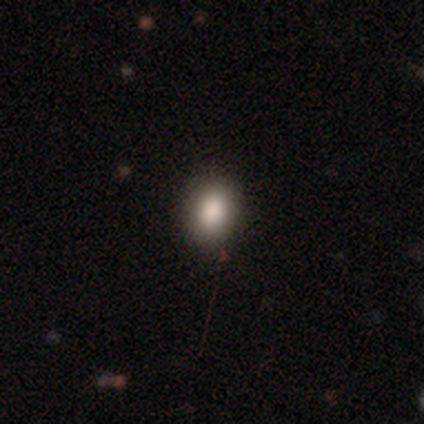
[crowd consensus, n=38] A smooth galaxy with no disk features (79%) that is in between round and cigar-shaped (57%).

Vote fractions:
- Smooth or featured? smooth: 79% / featured or disk: 11% / star or artifact: 11%
- How rounded? in between: 57% / round: 43% / cigar-shaped: 0%
- Merging? none: 85% / minor disturbance: 9% / major disturbance: 3% / merger: 3%